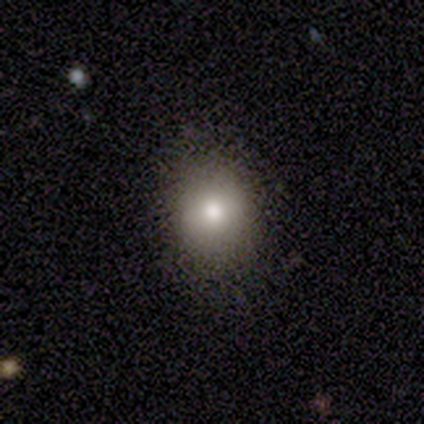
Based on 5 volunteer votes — A smooth galaxy with no disk features (80%) that is round (75%). Merging: none (80%).